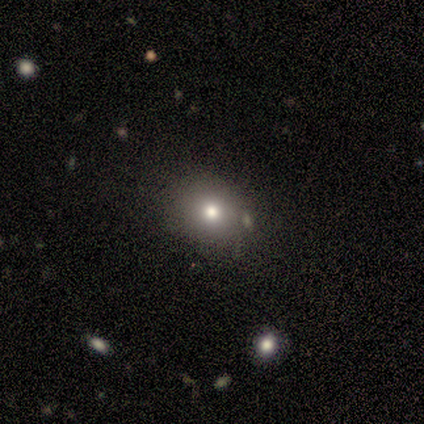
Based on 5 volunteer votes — Q: Smooth or featured?
A: smooth (80%); runner-up: featured or disk (20%)
Q: How rounded?
A: in between (75%); runner-up: round (25%)
Q: Merging?
A: none (100%)